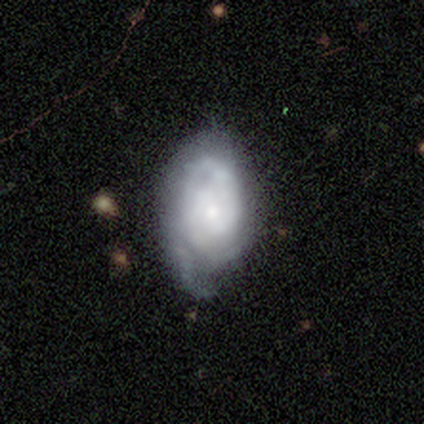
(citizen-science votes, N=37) This is likely a featured or disk galaxy (78%). It is clearly not viewed edge-on (100%). Bar: likely no (66%). Spiral arm pattern: clearly yes (97%). Spiral arm count: marginally 2 (43%, tied with can't tell). Spiral winding: likely tight (75%). Central bulge: likely small (69%). Merging: possibly none (50%).